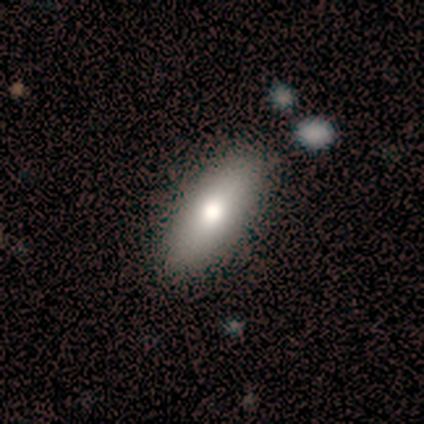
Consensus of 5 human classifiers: A smooth galaxy with no disk features (80%) that is in between round and cigar-shaped (75%). Merging: none (100%).